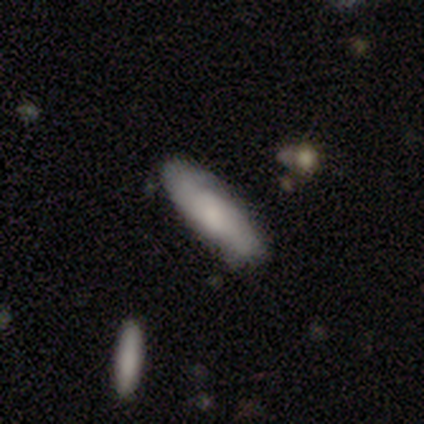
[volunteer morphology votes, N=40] Smooth or featured? smooth (55%)
How rounded? in between (55%)
Merging? none (76%)